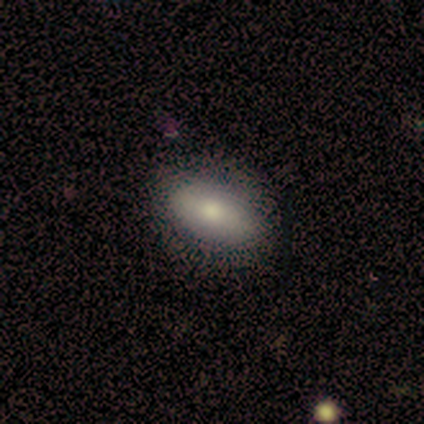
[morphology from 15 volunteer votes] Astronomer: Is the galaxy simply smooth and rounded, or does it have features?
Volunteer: smooth — 73%.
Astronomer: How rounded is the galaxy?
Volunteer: in between — 73%.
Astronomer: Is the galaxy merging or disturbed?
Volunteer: none — 87%.